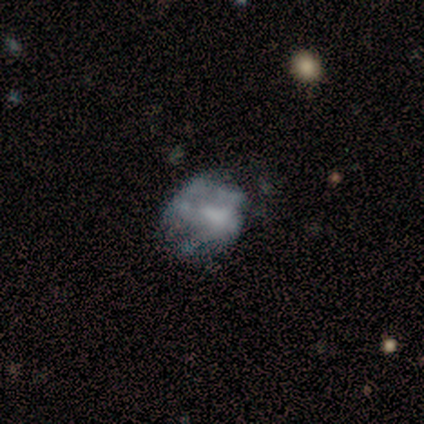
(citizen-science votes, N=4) Overall: featured or disk (50%; smooth 25%). Edge-on disk: no (100%). Bar: no (100%). Spiral arms: no (100%). Bulge size: small (50%, tied with none). Merging: minor disturbance (67%; none 33%).